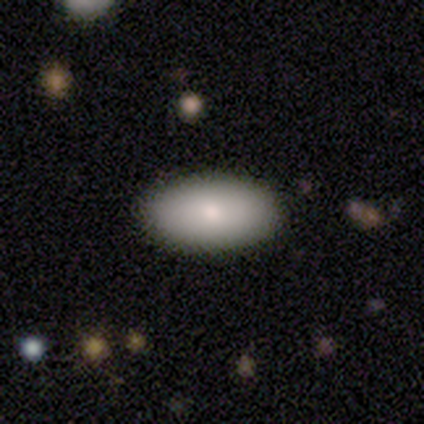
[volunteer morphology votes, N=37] type=smooth (92%); roundness=in between (94%); merging=none (95%).